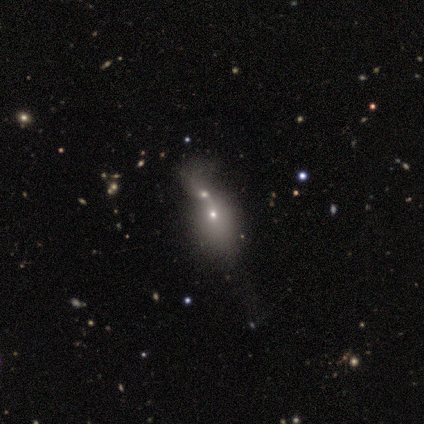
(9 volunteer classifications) Smooth or featured: smooth — 56% (featured or disk — 33%)
How rounded: in between — 60% (round — 40%)
Merging: merger — 100%